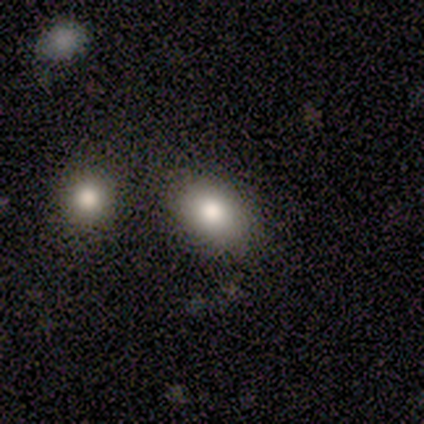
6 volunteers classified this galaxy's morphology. A smooth galaxy with no disk features (83%) that is in between round and cigar-shaped (80%). Merging: none (100%).